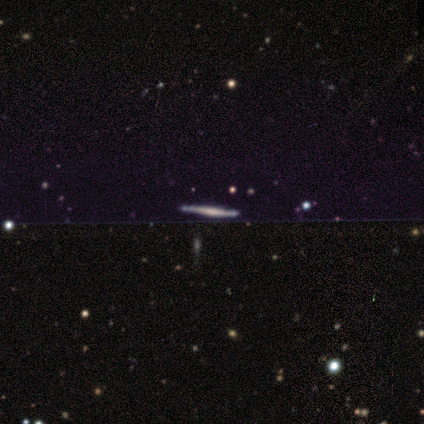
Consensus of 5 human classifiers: A featured or disk galaxy (100%) viewed edge-on (100%) with a boxy central bulge (60%). Merging: none (60%).